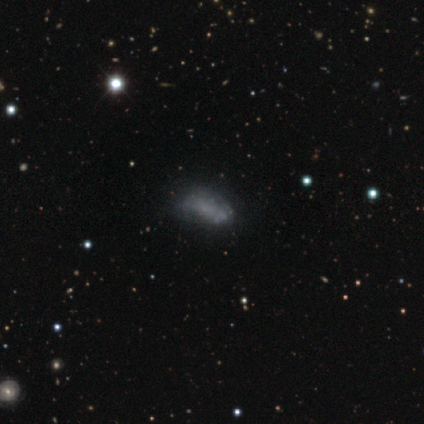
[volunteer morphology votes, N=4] Overall: smooth (50%, tied with featured or disk). How rounded: in between (100%). Merging: none (50%, tied with major disturbance).